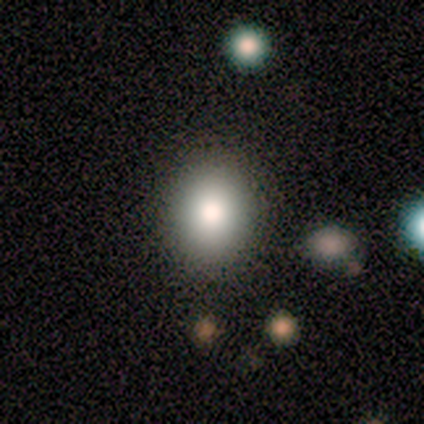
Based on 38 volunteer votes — Smooth or featured? 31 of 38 (82%) said smooth. How rounded? 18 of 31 (58%) said round. Merging? 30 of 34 (88%) said none.